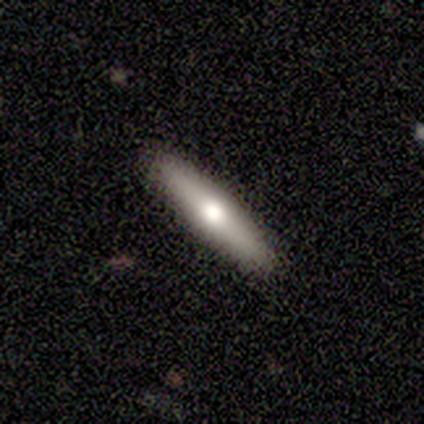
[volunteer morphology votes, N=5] A smooth galaxy with no disk features (60%) that is cigar-shaped (100%).

Vote fractions:
- Smooth or featured? smooth: 60% / featured or disk: 40% / star or artifact: 0%
- How rounded? cigar-shaped: 100% / round: 0% / in between: 0%
- Merging? none: 100% / minor disturbance: 0% / major disturbance: 0% / merger: 0%